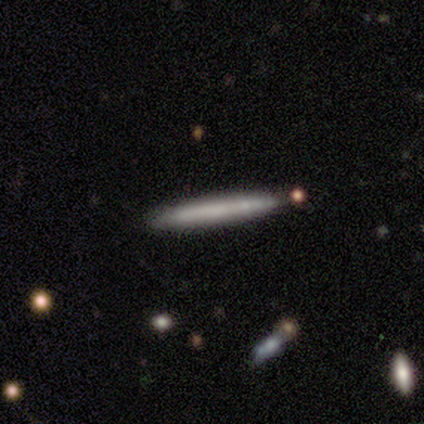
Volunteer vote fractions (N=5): Smooth or featured: smooth — 80% (featured or disk — 20%)
How rounded: cigar-shaped — 100%
Merging: none — 80% (merger — 20%)